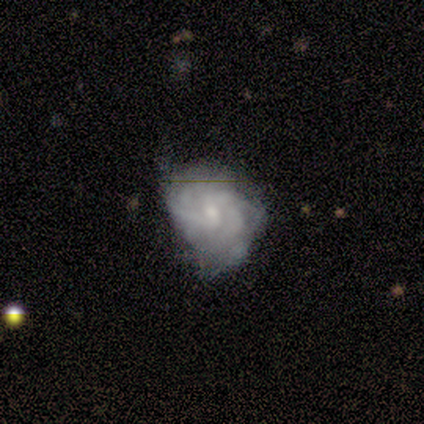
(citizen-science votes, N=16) A featured or disk galaxy (88%) with a weak bar (50%, tied with no), tight (70%) spiral arms (71%) and a moderate central bulge (43%, tied with small). Merging: none (44%).